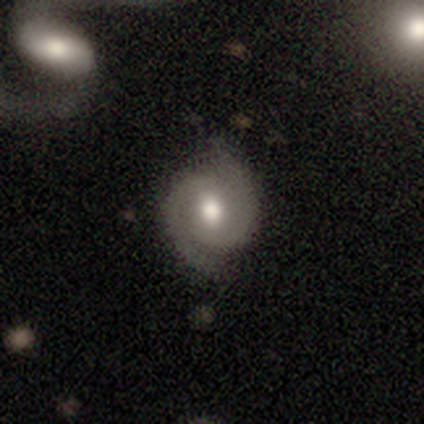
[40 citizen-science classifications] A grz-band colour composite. It shows a featured or disk galaxy (88%) with a weak bar (61%), 2 (100%) tight (50%) spiral arms (97%) and a moderate central bulge (85%). Merging: none (80%).